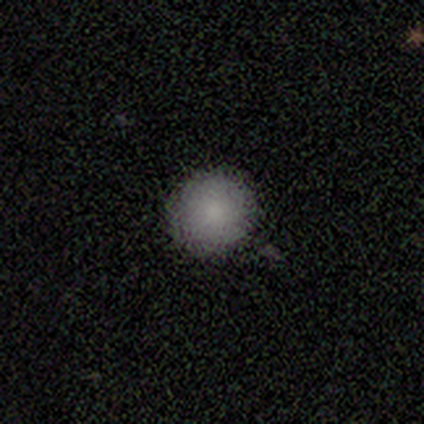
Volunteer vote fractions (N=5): smooth-or-featured: smooth: 80% | featured or disk: 20% | star or artifact: 0%
  how-rounded: round: 100% | in between: 0% | cigar-shaped: 0%
  merging: none: 60% | minor disturbance: 40% | major disturbance: 0% | merger: 0%